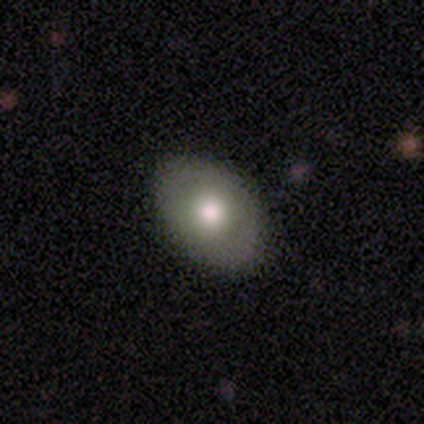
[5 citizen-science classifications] smooth_or_featured: smooth (p=1.00)
how_rounded: in between (p=1.00)
merging: none (p=1.00)